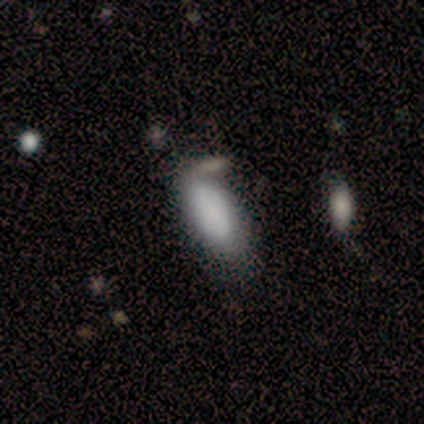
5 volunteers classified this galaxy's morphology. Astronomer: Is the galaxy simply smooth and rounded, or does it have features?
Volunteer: smooth — 80%.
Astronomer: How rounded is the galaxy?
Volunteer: in between — 100%.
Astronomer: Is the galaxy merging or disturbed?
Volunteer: minor disturbance — 40% (runner-up: none, 20%).